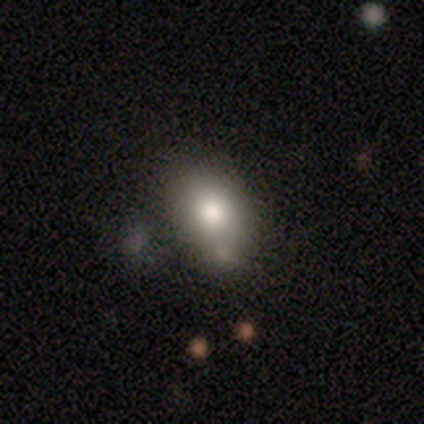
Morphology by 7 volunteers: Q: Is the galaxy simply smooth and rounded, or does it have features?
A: smooth — 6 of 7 (86%).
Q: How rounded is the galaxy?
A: in between — 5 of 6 (83%).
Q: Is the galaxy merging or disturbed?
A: none — 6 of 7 (86%).